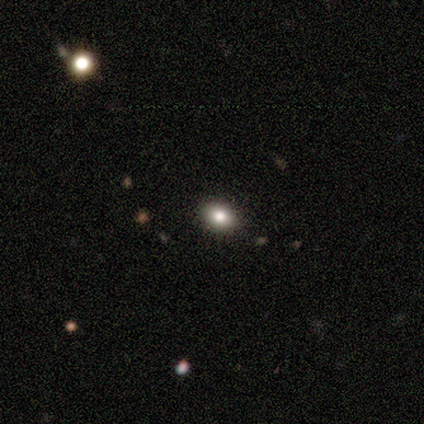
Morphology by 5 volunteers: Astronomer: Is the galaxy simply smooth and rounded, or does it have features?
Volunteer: smooth — 80%.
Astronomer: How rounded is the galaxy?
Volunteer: in between — 75%.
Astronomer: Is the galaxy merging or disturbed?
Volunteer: none — 100%.